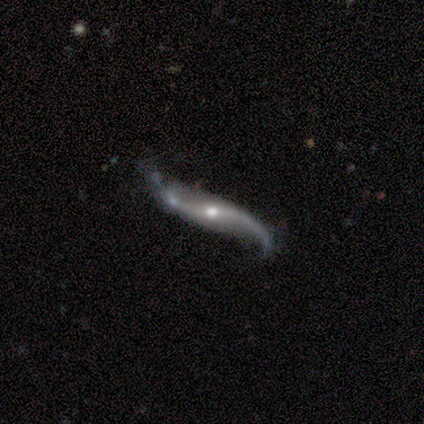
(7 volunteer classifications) This is clearly a featured or disk galaxy (100%). It is clearly not viewed edge-on (86%). Bar: clearly no (83%). Spiral arm pattern: clearly yes (83%). Spiral arm count: clearly 2 (100%). Spiral winding: clearly loose (100%). Central bulge: clearly moderate (83%). Merging: possibly none (57%).